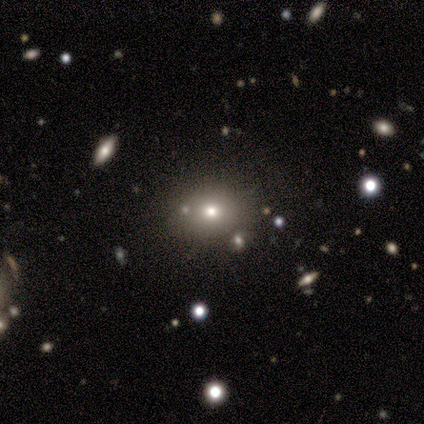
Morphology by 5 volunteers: A featured or disk galaxy (40%, tied with star or artifact) with no bar (100%), no spiral arms (100%) and a moderate central bulge (100%).

Vote fractions:
- Smooth or featured? featured or disk: 40% (tied) / star or artifact: 40% (tied) / smooth: 20%
- Edge-on disk? no: 100% / yes: 0%
- Bar? no: 100% / strong: 0% / weak: 0%
- Spiral arms? no: 100% / yes: 0%
- Bulge size? moderate: 100% / dominant: 0% / large: 0% / small: 0% / none: 0%
- Merging? none: 100% / minor disturbance: 0% / major disturbance: 0% / merger: 0%